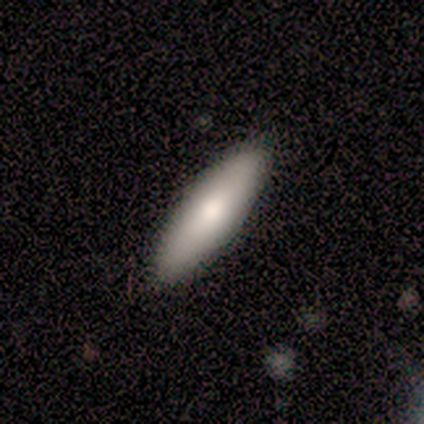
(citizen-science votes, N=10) Smooth or featured: smooth — 100%
How rounded: in between — 60% (cigar-shaped — 40%)
Merging: none — 100%